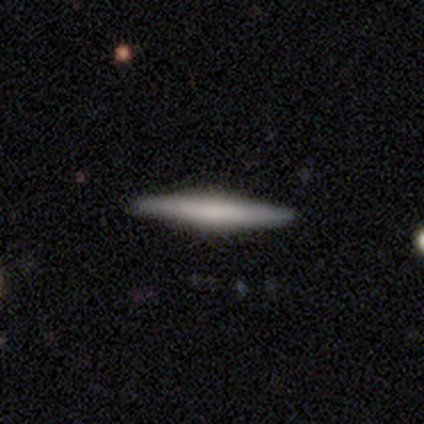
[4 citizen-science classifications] A smooth galaxy with no disk features (75%) that is cigar-shaped (100%).

Vote fractions:
- Smooth or featured? smooth: 75% / featured or disk: 25% / star or artifact: 0%
- How rounded? cigar-shaped: 100% / round: 0% / in between: 0%
- Merging? none: 100% / minor disturbance: 0% / major disturbance: 0% / merger: 0%